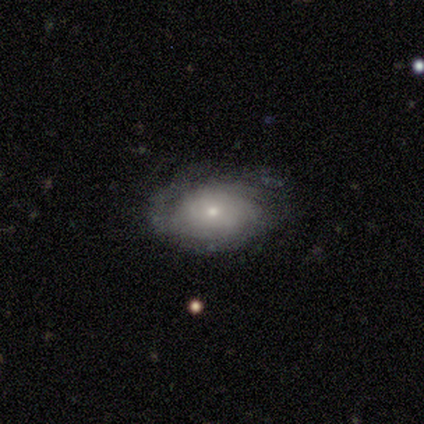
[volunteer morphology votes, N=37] Smooth or featured? featured or disk (65%)
Edge-on disk? no (100%)
Bar? no (83%)
Spiral arms? yes (79%)
Spiral winding? tight (63%)
Spiral arm count? can't tell (63%)
Bulge size? small (62%)
Merging? none (76%)